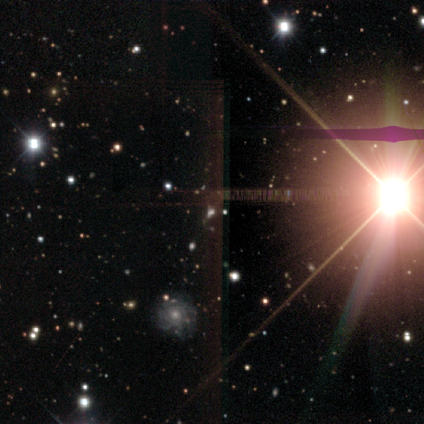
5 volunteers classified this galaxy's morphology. Smooth or featured: star or artifact — 80% (featured or disk — 20%)